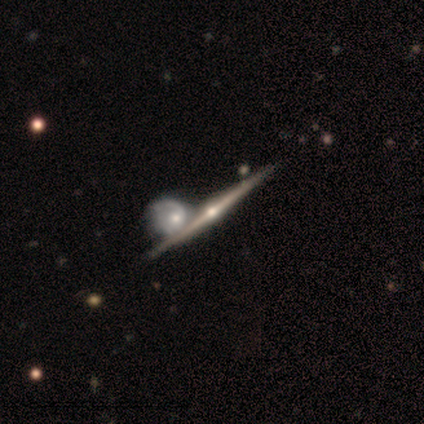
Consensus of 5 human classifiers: A featured or disk galaxy (100%) viewed edge-on (100%) with a rounded central bulge (100%).

Vote fractions:
- Smooth or featured? featured or disk: 100% / smooth: 0% / star or artifact: 0%
- Edge-on disk? yes: 100% / no: 0%
- Edge-on bulge? rounded: 100% / boxy: 0% / none: 0%
- Merging? none: 80% / merger: 20% / minor disturbance: 0% / major disturbance: 0%